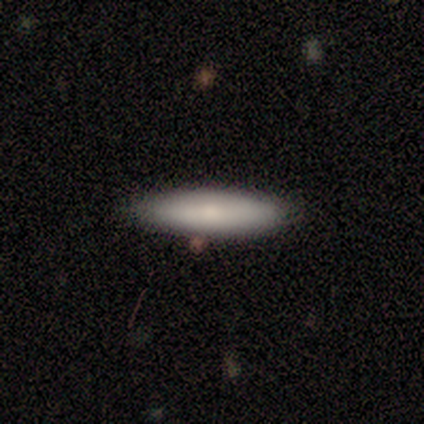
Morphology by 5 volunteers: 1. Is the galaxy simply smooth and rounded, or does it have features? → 80% smooth, 20% featured or disk, 0% star or artifact.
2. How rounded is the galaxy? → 75% cigar-shaped, 25% in between, 0% round.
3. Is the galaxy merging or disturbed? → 60% none, 40% minor disturbance, 0% major disturbance, 0% merger.